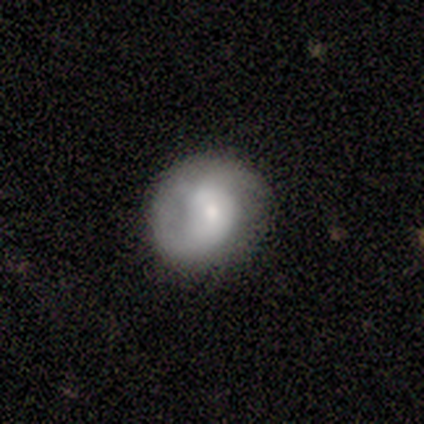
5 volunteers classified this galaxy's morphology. Smooth or featured? 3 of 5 (60%) said featured or disk. Edge-on disk? 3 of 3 (100%) said no. Bar? 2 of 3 (67%) said no. Spiral arms? 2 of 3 (67%) said yes. Spiral winding? 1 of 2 (50%, tied with loose) said tight. Spiral arm count? 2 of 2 (100%) said 2. Bulge size? 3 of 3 (100%) said small. Merging? 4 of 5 (80%) said none.